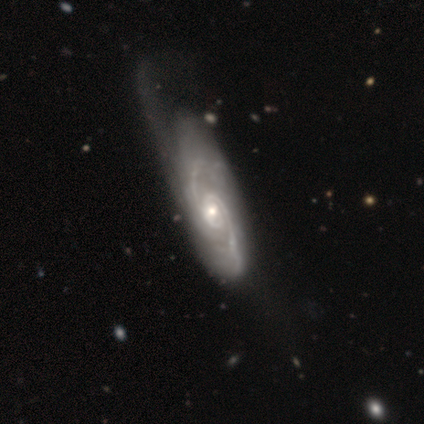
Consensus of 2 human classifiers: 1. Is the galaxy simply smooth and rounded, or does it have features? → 100% featured or disk, 0% smooth, 0% star or artifact.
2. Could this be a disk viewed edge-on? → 100% no, 0% yes.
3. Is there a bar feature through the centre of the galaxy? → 100% no, 0% strong, 0% weak.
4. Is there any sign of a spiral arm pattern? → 100% yes, 0% no.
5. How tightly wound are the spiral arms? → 50% tight (tied), 50% medium (tied), 0% loose.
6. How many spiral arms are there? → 100% 2, 0% 1, 0% 3, 0% 4, 0% more than 4, 0% can't tell.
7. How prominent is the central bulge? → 100% small, 0% dominant, 0% large, 0% moderate, 0% none.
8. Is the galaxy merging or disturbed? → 50% none (tied), 50% minor disturbance (tied), 0% major disturbance, 0% merger.